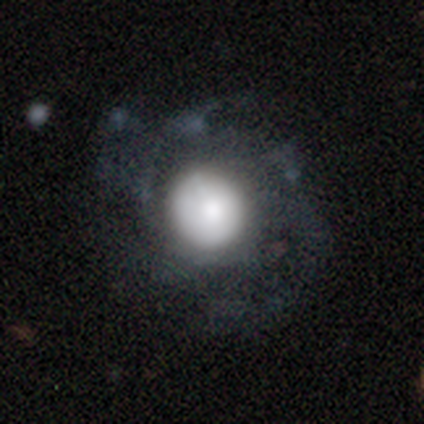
Smooth or featured: featured or disk — 50% (smooth — 25%)
Edge-on disk: no — 100%
Bar: strong — 50% (tied with no — 50%)
Spiral arms: yes — 100%
Spiral winding: medium — 100%
Spiral arm count: 2 — 50% (tied with more than 4 — 50%)
Bulge size: large — 100%
Merging: none — 33% (tied with major disturbance — 33%; merger — 33%)